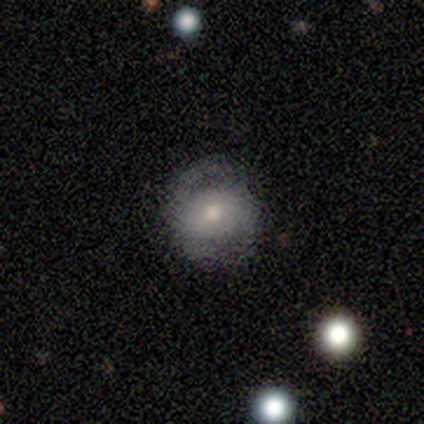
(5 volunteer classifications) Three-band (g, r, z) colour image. It shows a featured or disk galaxy (60%) with a weak bar (67%), 2 (100%) medium (100%) spiral arms (67%) and a moderate central bulge (67%). Merging: none (50%).